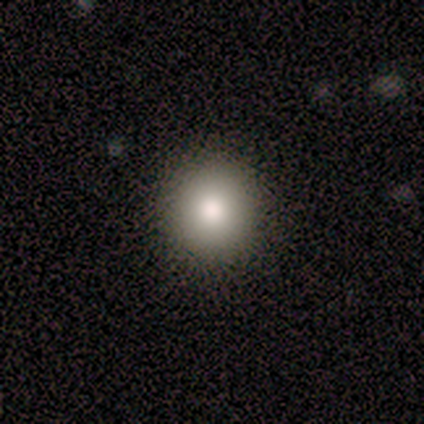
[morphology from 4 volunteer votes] Smooth or featured?
  - smooth: 100% *
  - featured or disk: 0%
  - star or artifact: 0%
How rounded?
  - round: 100% *
  - in between: 0%
  - cigar-shaped: 0%
Merging?
  - none: 75% *
  - minor disturbance: 25%
  - major disturbance: 0%
  - merger: 0%